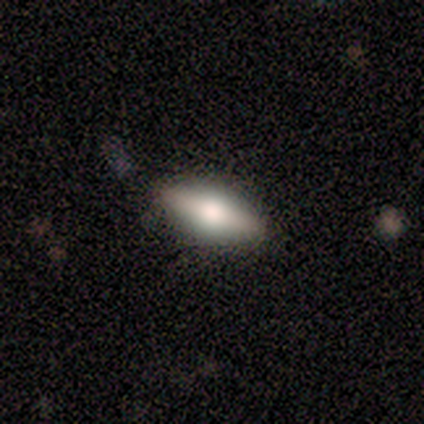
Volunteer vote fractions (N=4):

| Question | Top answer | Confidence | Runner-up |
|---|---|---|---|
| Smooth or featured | smooth | 75% | featured or disk (25%) |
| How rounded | cigar-shaped | 67% | in between (33%) |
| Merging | none | 100% | — |